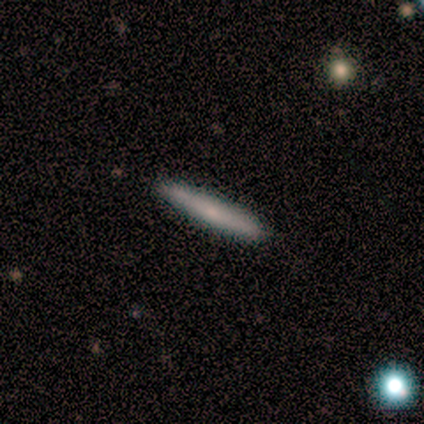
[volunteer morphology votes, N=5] smooth_or_featured: smooth (p=0.40) [tied with: star or artifact p=0.40]
how_rounded: cigar-shaped (p=1.00)
merging: none (p=1.00)